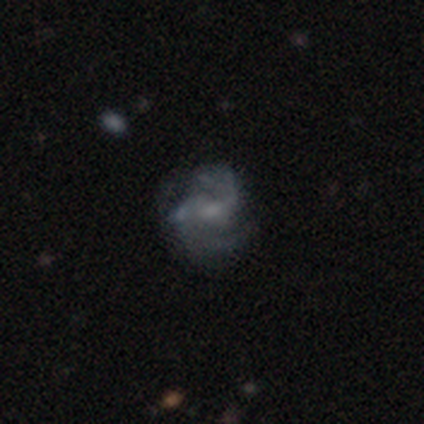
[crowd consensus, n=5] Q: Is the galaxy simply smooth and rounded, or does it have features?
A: featured or disk — 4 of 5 (80%).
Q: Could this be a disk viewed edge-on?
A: no — 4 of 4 (100%).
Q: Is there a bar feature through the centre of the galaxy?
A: weak — 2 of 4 (50%, tied with no).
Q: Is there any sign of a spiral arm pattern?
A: yes — 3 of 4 (75%).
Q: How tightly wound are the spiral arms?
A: medium — 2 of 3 (67%).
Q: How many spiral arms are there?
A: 2 — 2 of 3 (67%).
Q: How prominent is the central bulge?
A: small — 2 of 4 (50%, tied with none).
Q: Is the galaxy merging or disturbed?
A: minor disturbance — 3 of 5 (60%).